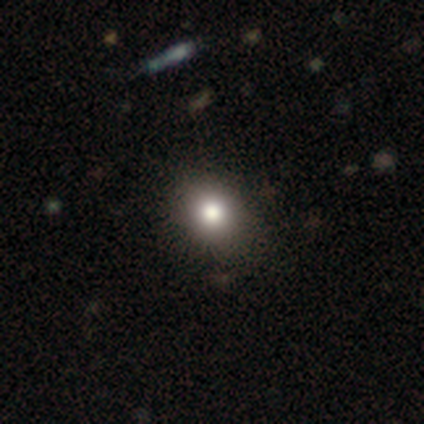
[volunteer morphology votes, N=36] Smooth or featured?
  - smooth: 67% *
  - star or artifact: 22%
  - featured or disk: 11%
How rounded?
  - in between: 62% *
  - round: 38%
  - cigar-shaped: 0%
Merging?
  - none: 86% *
  - minor disturbance: 14%
  - major disturbance: 0%
  - merger: 0%